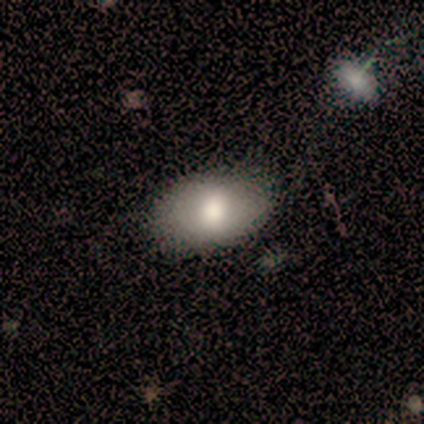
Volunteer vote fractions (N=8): Smooth or featured? smooth (75%)
How rounded? in between (67%)
Merging? none (88%)